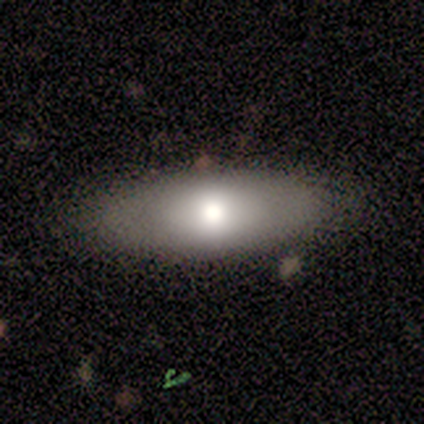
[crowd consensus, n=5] Smooth or featured? smooth (60%)
How rounded? in between (100%)
Merging? none (100%)